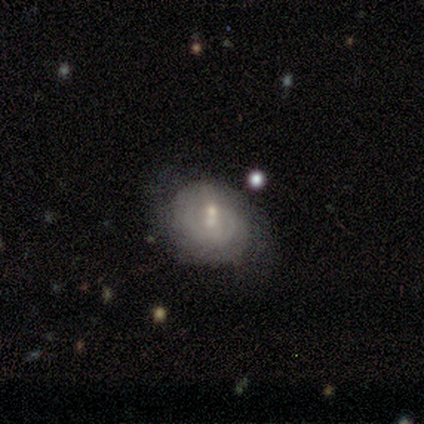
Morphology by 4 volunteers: A featured or disk galaxy (75%) with no bar (100%), 2 (50%, tied with can't tell) medium (50%, tied with loose) spiral arms (67%) and a small central bulge (100%). Merging: none (50%).